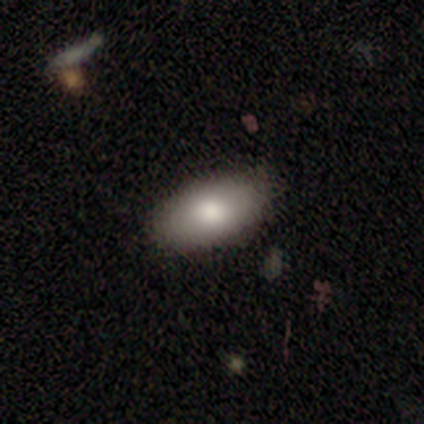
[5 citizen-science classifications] Smooth or featured?
  - smooth: 80% *
  - star or artifact: 20%
  - featured or disk: 0%
How rounded?
  - in between: 100% *
  - round: 0%
  - cigar-shaped: 0%
Merging?
  - none: 75% *
  - minor disturbance: 25%
  - major disturbance: 0%
  - merger: 0%